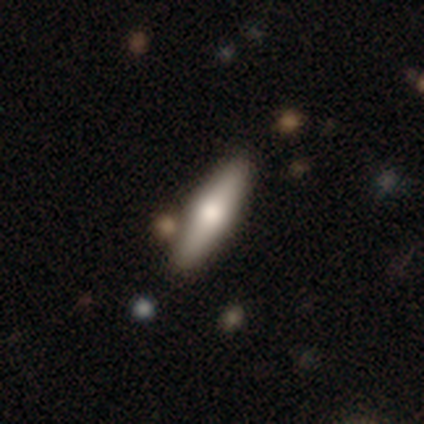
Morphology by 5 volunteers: Overall: featured or disk (100%). Edge-on disk: yes (100%). Edge-on bulge: rounded (100%). Merging: none (80%).